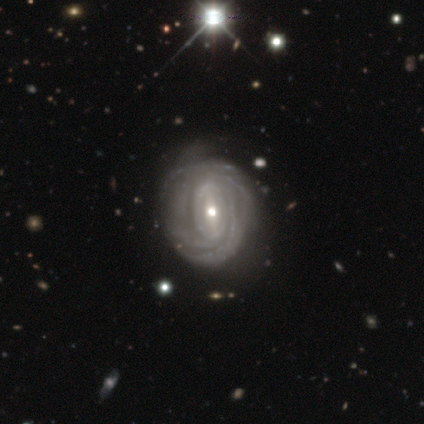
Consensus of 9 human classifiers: smooth-or-featured: featured or disk: 89% | smooth: 11% | star or artifact: 0%
  disk-edge-on: no: 100% | yes: 0%
    bar: weak: 50% | strong: 25% | no: 25%
    has-spiral-arms: yes: 88% | no: 12%
      spiral-winding: tight: 71% | medium: 14% | loose: 14%
      spiral-arm-count: can't tell: 57% | 4: 29% | 2: 14% | 1: 0% | 3: 0% | more than 4: 0%
    bulge-size: small: 75% | moderate: 25% | dominant: 0% | large: 0% | none: 0%
  merging: none: 44% (tied) | minor disturbance: 44% (tied) | merger: 11% | major disturbance: 0%